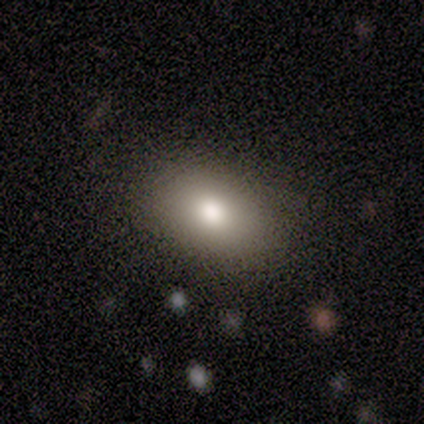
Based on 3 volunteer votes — Smooth or featured?
  - smooth: 67% *
  - star or artifact: 33%
  - featured or disk: 0%
How rounded?
  - in between: 100% *
  - round: 0%
  - cigar-shaped: 0%
Merging?
  - none: 100% *
  - minor disturbance: 0%
  - major disturbance: 0%
  - merger: 0%